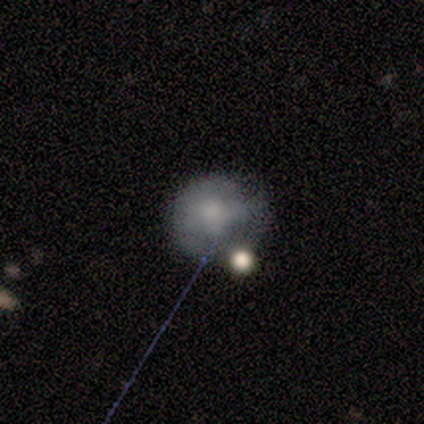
Smooth or featured: smooth — 80% (featured or disk — 20%)
How rounded: round — 75% (in between — 25%)
Merging: none — 80% (minor disturbance — 20%)